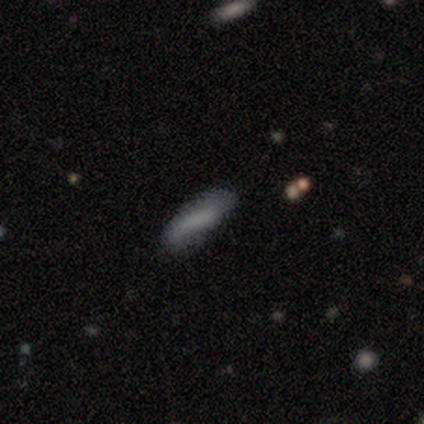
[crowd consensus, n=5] Overall: smooth (60%; featured or disk 20%). How rounded: in between (67%; cigar-shaped 33%). Merging: minor disturbance (50%; none 25%).